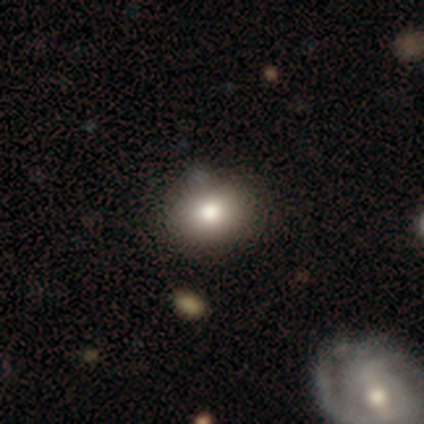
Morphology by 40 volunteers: Volunteers were most divided on "how rounded": round: 60%, in between: 40%, cigar-shaped: 0%. More confident: smooth or featured — smooth (88%); merging — none (82%).